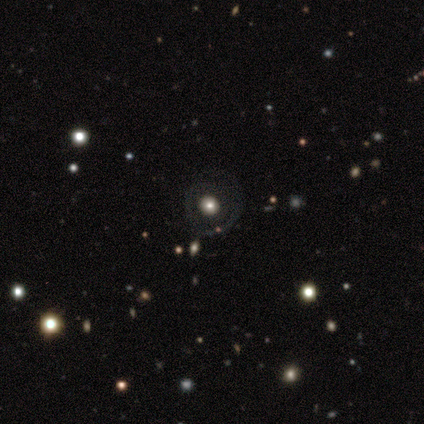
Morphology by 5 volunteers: Overall: smooth (40%, tied with featured or disk). How rounded: round (100%). Merging: none (75%).